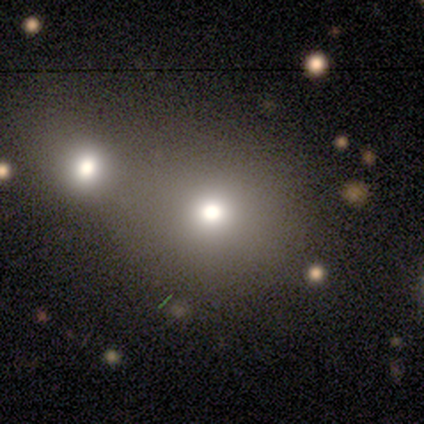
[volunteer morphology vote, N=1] smooth-or-featured: smooth: 100% | featured or disk: 0% | star or artifact: 0%
  how-rounded: round: 100% | in between: 0% | cigar-shaped: 0%
  merging: none: 100% | minor disturbance: 0% | major disturbance: 0% | merger: 0%